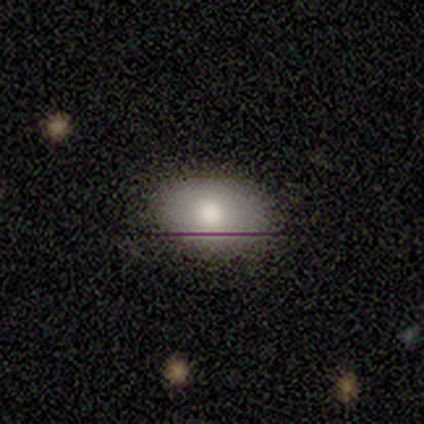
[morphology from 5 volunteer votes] A star or artifact, not a galaxy (60%).

Vote fractions:
- Smooth or featured? star or artifact: 60% / smooth: 20% / featured or disk: 20%